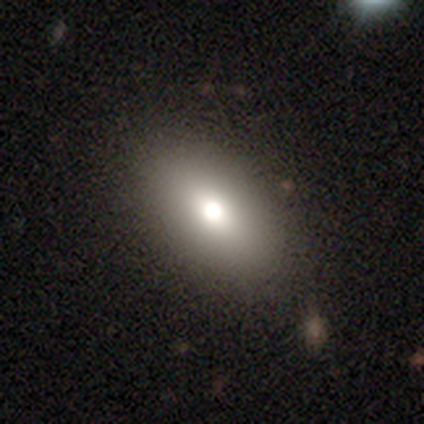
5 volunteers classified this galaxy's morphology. A smooth galaxy with no disk features (80%) that is in between round and cigar-shaped (75%). Merging: none (80%).